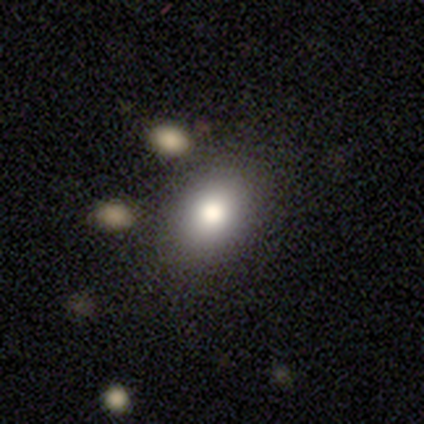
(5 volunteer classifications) A smooth galaxy with no disk features (100%) that is in between round and cigar-shaped (100%). Merging: none (80%).